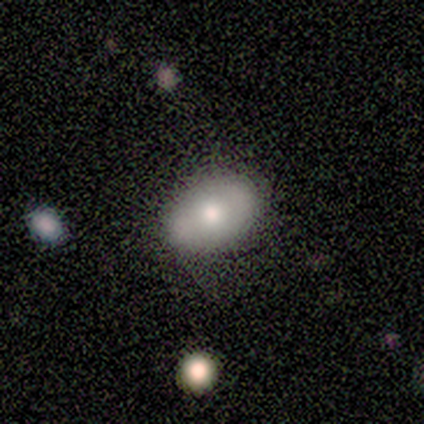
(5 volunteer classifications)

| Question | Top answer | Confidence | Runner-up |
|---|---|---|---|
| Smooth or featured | smooth | 60% | featured or disk (40%) |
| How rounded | in between | 100% | — |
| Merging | none | 100% | — |